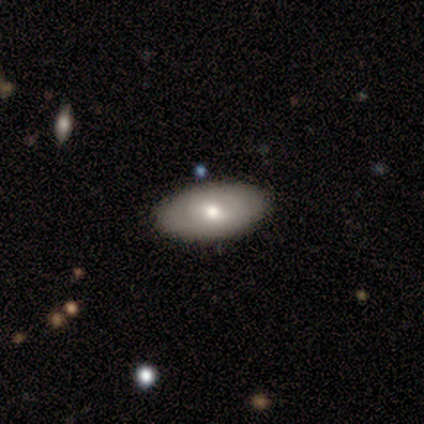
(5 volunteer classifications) A smooth galaxy with no disk features (80%) that is in between round and cigar-shaped (100%).

Vote fractions:
- Smooth or featured? smooth: 80% / featured or disk: 20% / star or artifact: 0%
- How rounded? in between: 100% / round: 0% / cigar-shaped: 0%
- Merging? none: 100% / minor disturbance: 0% / major disturbance: 0% / merger: 0%